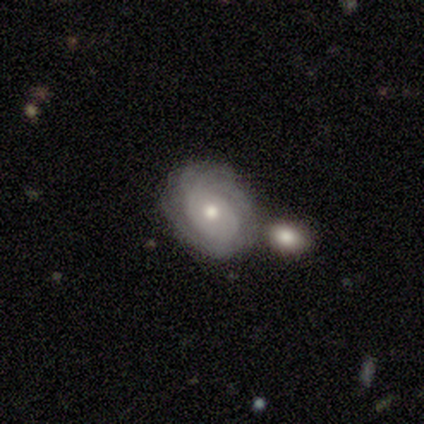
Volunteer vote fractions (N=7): Smooth or featured? featured or disk (100%)
Edge-on disk? no (86%)
Bar? no (83%)
Spiral arms? yes (67%)
Spiral winding? tight (100%)
Spiral arm count? can't tell (75%)
Bulge size? moderate (67%)
Merging? none (57%)